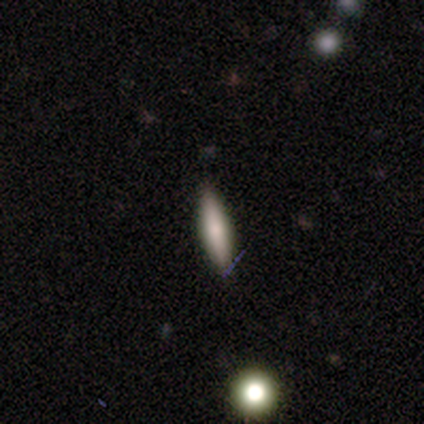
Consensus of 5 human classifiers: Morphology: type=smooth (60%); roundness=cigar-shaped (67%); merging=none (100%).